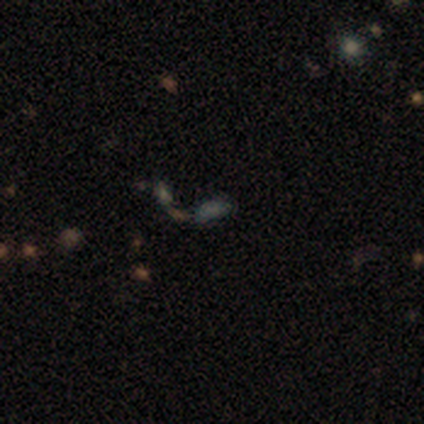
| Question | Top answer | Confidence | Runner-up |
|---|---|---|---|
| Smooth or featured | smooth | 40% | tied: star or artifact (40%) |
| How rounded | in between | 100% | — |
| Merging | none | 67% | merger (33%) |